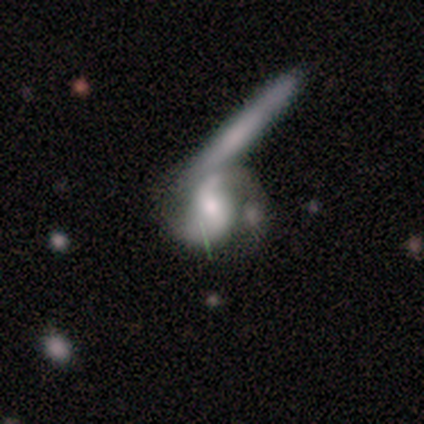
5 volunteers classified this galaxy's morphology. This appears to be a smooth galaxy with no disk features (60%) that is in between round and cigar-shaped (67%). Merging: major disturbance (40%, tied with merger).